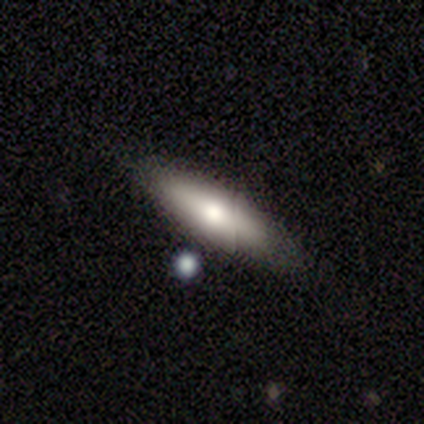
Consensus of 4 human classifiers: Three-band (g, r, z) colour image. It shows a smooth galaxy with no disk features (75%) that is in between round and cigar-shaped (67%). Merging: none (100%).